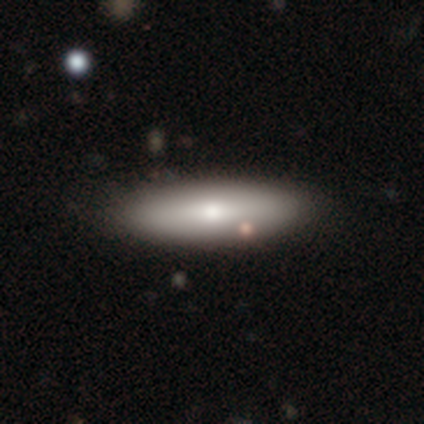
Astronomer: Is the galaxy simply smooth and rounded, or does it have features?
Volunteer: smooth — 82%.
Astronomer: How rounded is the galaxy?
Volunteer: in between — 60% (runner-up: cigar-shaped, 38%).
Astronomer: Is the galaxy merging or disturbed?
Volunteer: none — 41%.